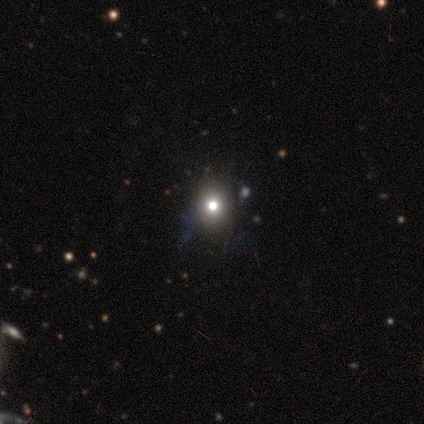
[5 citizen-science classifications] Volunteers were most divided on "merging": none: 75%, minor disturbance: 25%, major disturbance: 0%, merger: 0%. More confident: how rounded — round (100%); smooth or featured — smooth (80%).